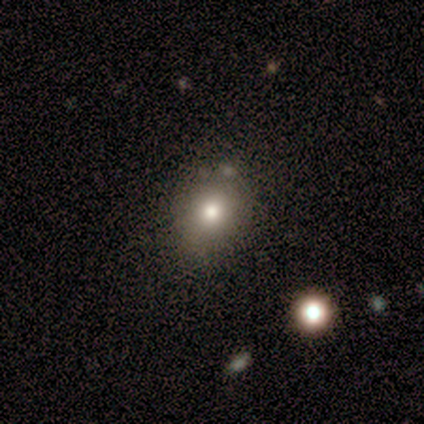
This is clearly a smooth galaxy (100%). How rounded: likely round (67%). Merging: clearly none (100%).